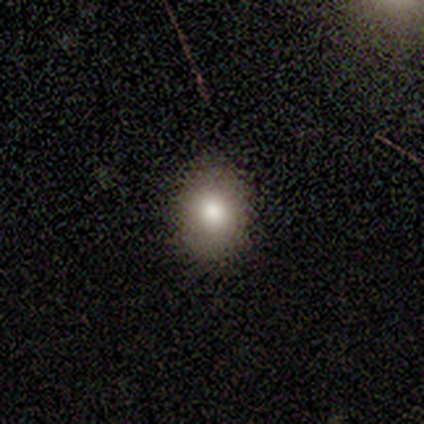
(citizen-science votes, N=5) Morphology: type=smooth (60%); roundness=in between (67%); merging=none (75%).